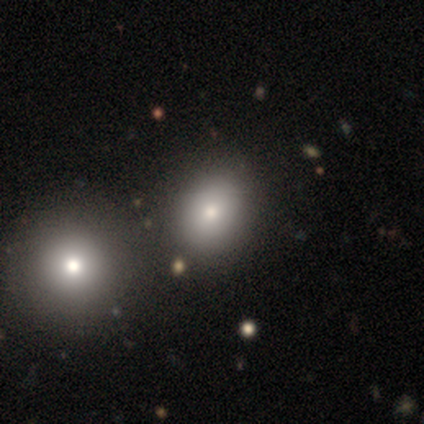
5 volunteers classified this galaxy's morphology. Smooth or featured?
  - smooth: 80% *
  - star or artifact: 20%
  - featured or disk: 0%
How rounded?
  - in between: 75% *
  - round: 25%
  - cigar-shaped: 0%
Merging?
  - none: 50% *
  - minor disturbance: 25%
  - merger: 25%
  - major disturbance: 0%